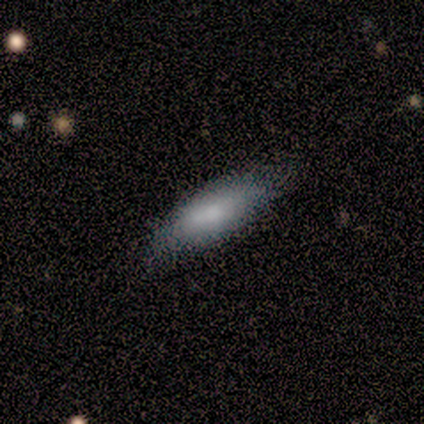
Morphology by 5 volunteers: This is clearly a smooth galaxy (100%). How rounded: likely in between (60%). Merging: clearly none (80%).